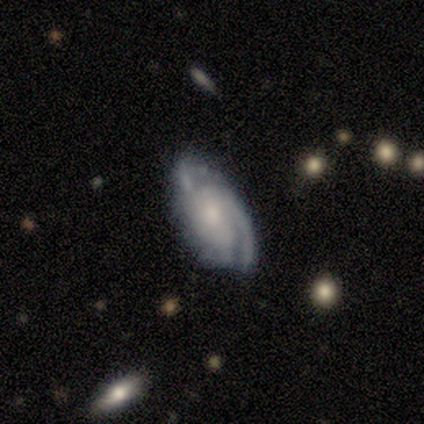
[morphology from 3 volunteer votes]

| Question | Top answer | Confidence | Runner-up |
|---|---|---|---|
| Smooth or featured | featured or disk | 67% | smooth (33%) |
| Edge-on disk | no | 100% | — |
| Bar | no | 100% | — |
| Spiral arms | yes | 100% | — |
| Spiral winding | medium | 100% | — |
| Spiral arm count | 2 | 100% | — |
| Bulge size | moderate | 50% | tied: small (50%) |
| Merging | none | 67% | minor disturbance (33%) |